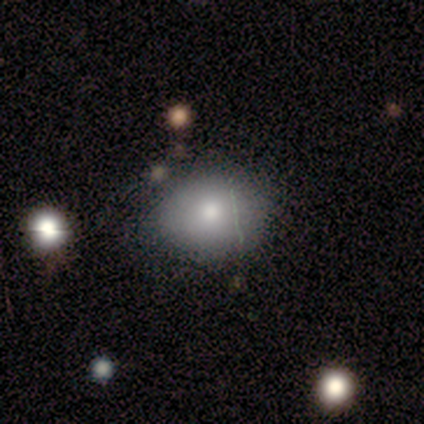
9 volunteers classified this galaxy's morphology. This appears to be a smooth galaxy with no disk features (100%) that is in between round and cigar-shaped (56%). Merging: none (56%).